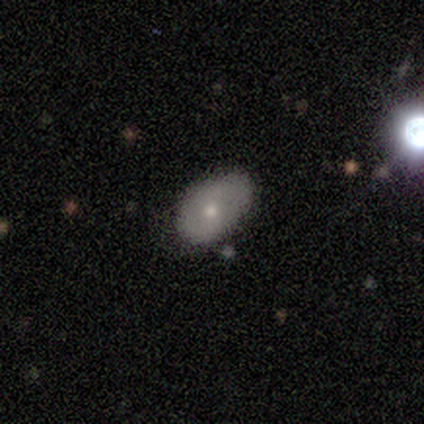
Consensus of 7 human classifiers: Q: Smooth or featured?
A: smooth (86%); runner-up: featured or disk (14%)
Q: How rounded?
A: in between (100%)
Q: Merging?
A: none (86%); runner-up: minor disturbance (14%)